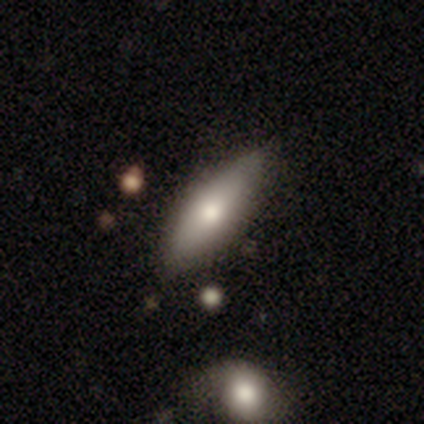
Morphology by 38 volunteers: smooth 66%, featured or disk 32%, star or artifact 3%. Down the decision tree: how rounded — in between (68%); merging — none (78%).